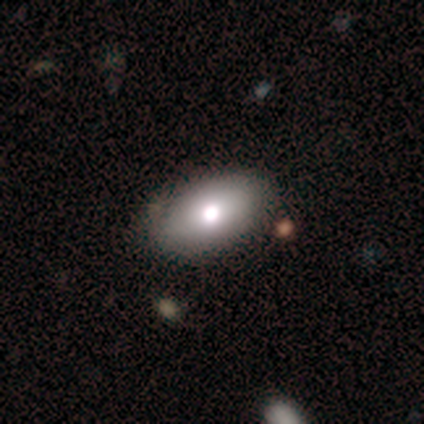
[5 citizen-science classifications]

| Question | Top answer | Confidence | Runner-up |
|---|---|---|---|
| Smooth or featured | featured or disk | 60% | smooth (40%) |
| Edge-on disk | no | 100% | — |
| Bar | no | 100% | — |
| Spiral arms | no | 100% | — |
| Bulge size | moderate | 67% | large (33%) |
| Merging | none | 80% | minor disturbance (20%) |